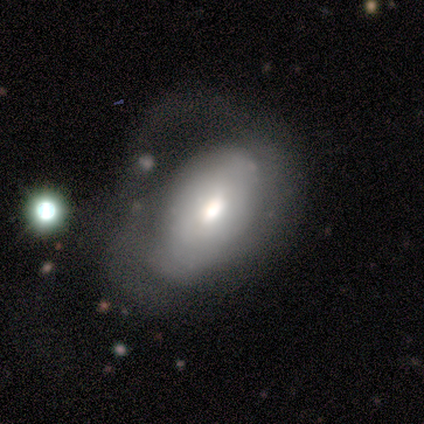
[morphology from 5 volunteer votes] Smooth or featured? smooth (60%)
How rounded? in between (100%)
Merging? major disturbance (40%)